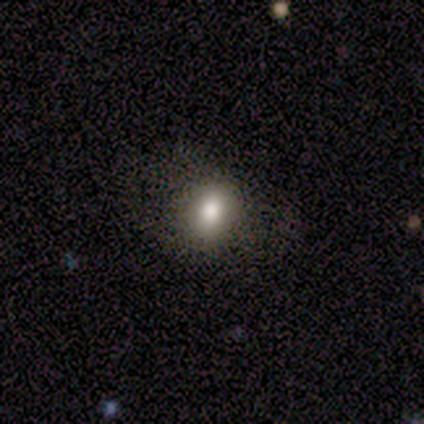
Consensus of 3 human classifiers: Smooth or featured? 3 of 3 (100%) said smooth. How rounded? 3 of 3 (100%) said round. Merging? 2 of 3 (67%) said none.